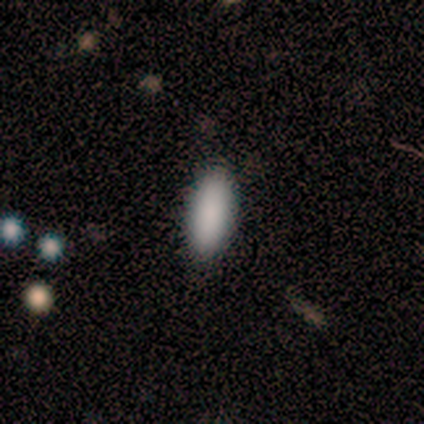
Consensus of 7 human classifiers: A smooth galaxy with no disk features (71%) that is in between round and cigar-shaped (80%). Merging: none (100%).